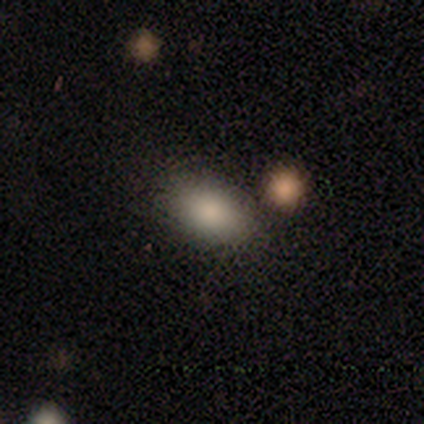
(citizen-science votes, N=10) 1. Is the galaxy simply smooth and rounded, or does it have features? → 100% smooth, 0% featured or disk, 0% star or artifact.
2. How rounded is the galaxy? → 100% in between, 0% round, 0% cigar-shaped.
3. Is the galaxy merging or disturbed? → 80% none, 20% minor disturbance, 0% major disturbance, 0% merger.